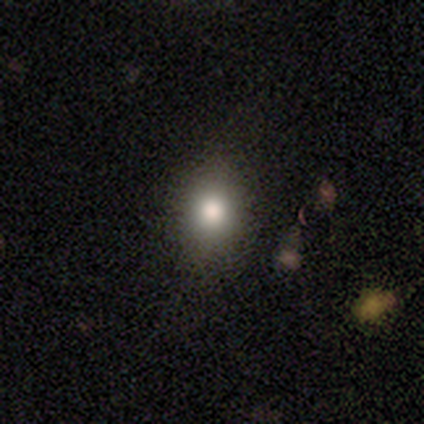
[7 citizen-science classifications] Volunteers were most divided on "how rounded": round: 67%, in between: 33%, cigar-shaped: 0%. More confident: merging — none (100%); smooth or featured — smooth (86%).